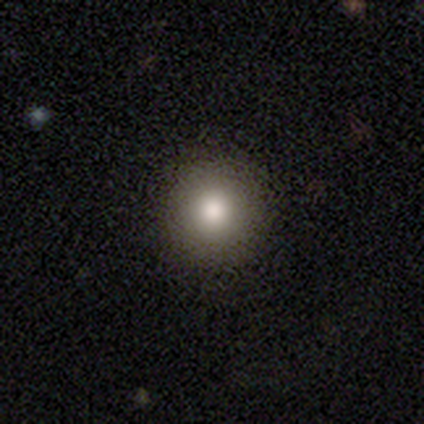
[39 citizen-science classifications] smooth_or_featured: smooth (p=0.82) [alt: star or artifact p=0.10]
how_rounded: round (p=0.97) [alt: in between p=0.03]
merging: none (p=0.97) [alt: minor disturbance p=0.03]